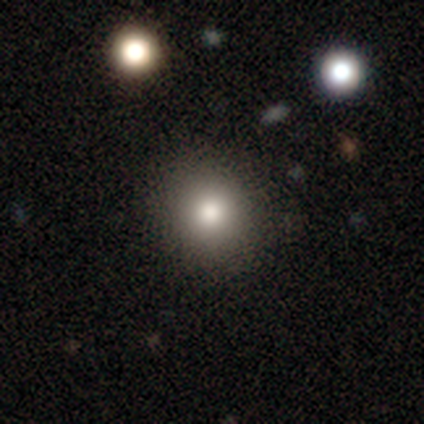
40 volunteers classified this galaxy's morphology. type=smooth (80%); roundness=round (91%); merging=none (88%).